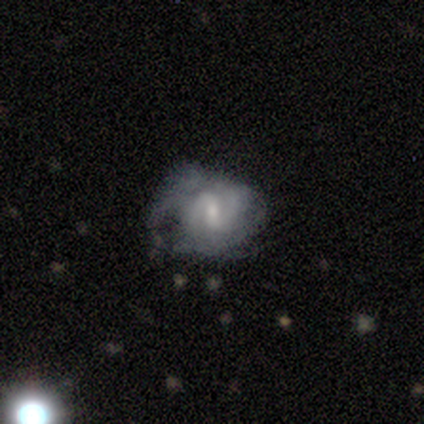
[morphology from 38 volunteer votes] featured or disk 82%, smooth 13%, star or artifact 5%. Down the decision tree: edge-on disk — no (100%); bar — weak (55%); spiral arms — yes (84%); spiral arm count — 2 (73%); spiral winding — medium (58%); bulge size — small (55%); merging — major disturbance (50%).